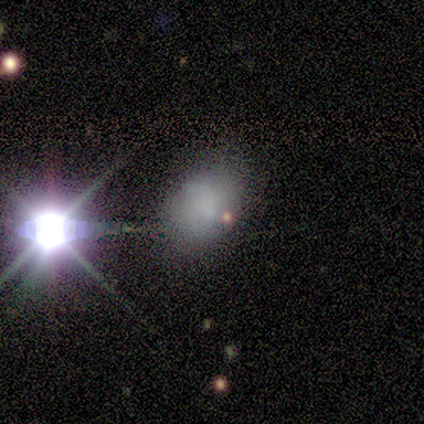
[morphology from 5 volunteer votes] Smooth or featured: smooth — 60% (star or artifact — 40%)
How rounded: in between — 100%
Merging: none — 100%